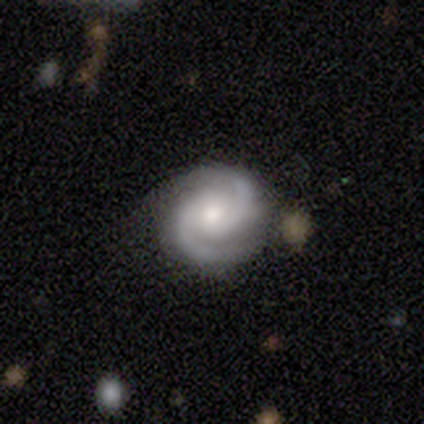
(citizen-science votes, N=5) Q: Smooth or featured?
A: featured or disk (100%)
Q: Edge-on disk?
A: no (100%)
Q: Bar?
A: no (60%); runner-up: strong (20%)
Q: Spiral arms?
A: yes (100%)
Q: Spiral winding?
A: tight (60%); runner-up: medium (40%)
Q: Spiral arm count?
A: 2 (100%)
Q: Bulge size?
A: moderate (80%); runner-up: small (20%)
Q: Merging?
A: none (80%); runner-up: major disturbance (20%)